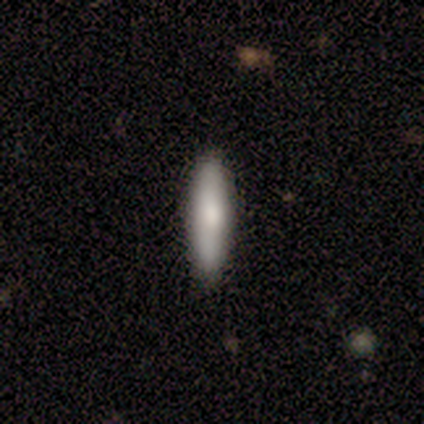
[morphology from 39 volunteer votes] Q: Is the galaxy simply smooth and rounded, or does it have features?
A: smooth — 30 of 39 (77%).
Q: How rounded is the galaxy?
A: cigar-shaped — 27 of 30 (90%).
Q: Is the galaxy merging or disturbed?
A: none — 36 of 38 (95%).